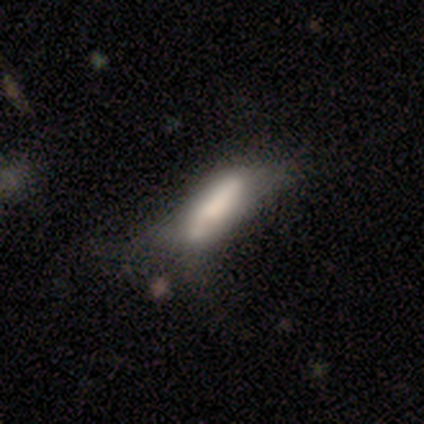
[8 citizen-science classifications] Smooth or featured? smooth (88%)
How rounded? cigar-shaped (57%)
Merging? minor disturbance (50%)